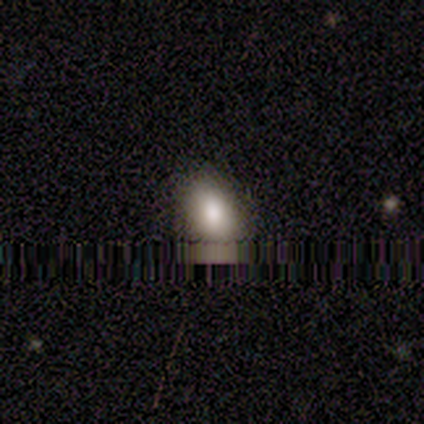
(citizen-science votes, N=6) Volunteers were most divided on "how rounded": round: 60%, in between: 40%, cigar-shaped: 0%. More confident: smooth or featured — smooth (83%); merging — none (50%).